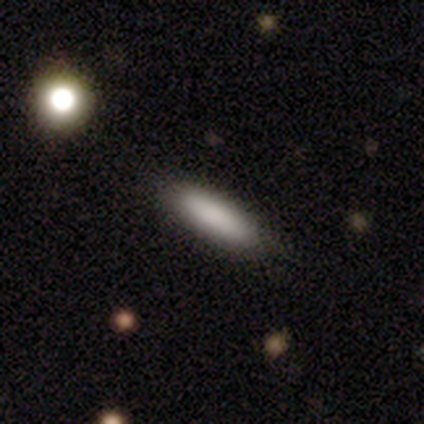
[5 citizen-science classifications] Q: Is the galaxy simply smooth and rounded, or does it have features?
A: smooth — 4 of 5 (80%).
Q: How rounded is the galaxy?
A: in between — 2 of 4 (50%, tied with cigar-shaped).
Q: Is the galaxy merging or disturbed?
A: none — 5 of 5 (100%).